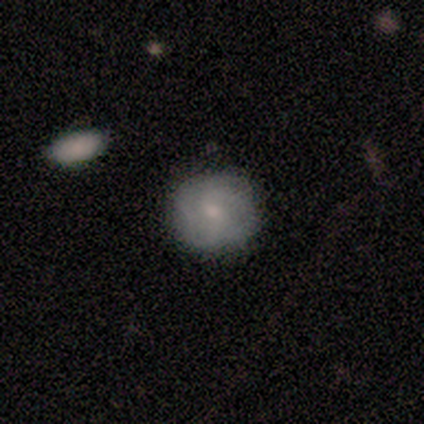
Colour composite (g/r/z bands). It shows a smooth galaxy with no disk features (80%) that is round (100%). Merging: none (100%).